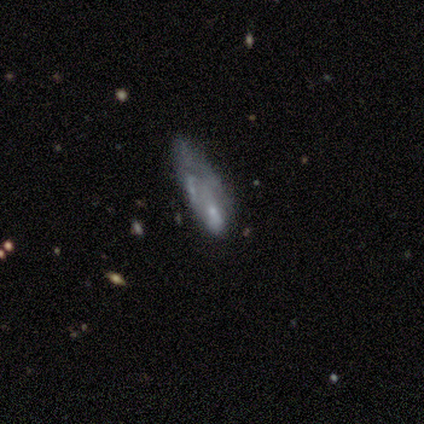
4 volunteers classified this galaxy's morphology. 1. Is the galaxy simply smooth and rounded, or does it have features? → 50% smooth (tied), 50% featured or disk (tied), 0% star or artifact.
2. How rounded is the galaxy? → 50% in between (tied), 50% cigar-shaped (tied), 0% round.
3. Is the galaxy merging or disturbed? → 75% none, 25% major disturbance, 0% minor disturbance, 0% merger.